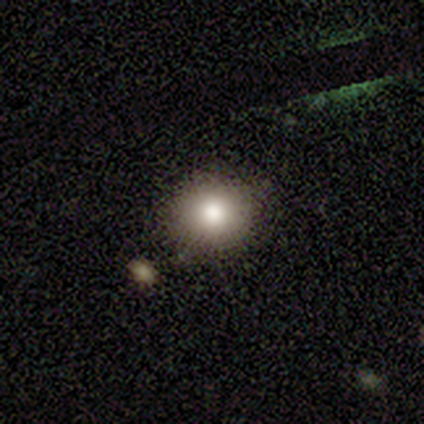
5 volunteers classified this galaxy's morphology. Smooth or featured? smooth (80%)
How rounded? round (100%)
Merging? none (100%)